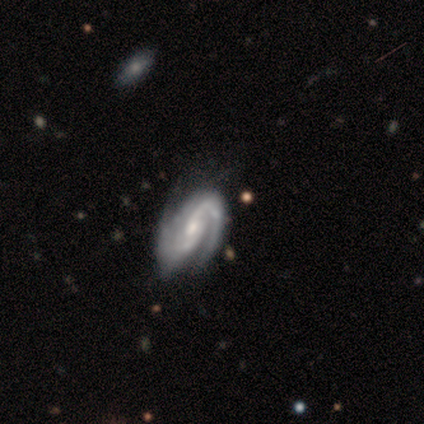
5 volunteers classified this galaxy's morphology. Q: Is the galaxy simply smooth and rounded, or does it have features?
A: featured or disk — 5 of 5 (100%).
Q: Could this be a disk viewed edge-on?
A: no — 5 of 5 (100%).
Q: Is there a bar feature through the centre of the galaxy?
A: no — 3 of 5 (60%).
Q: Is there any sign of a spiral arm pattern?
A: yes — 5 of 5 (100%).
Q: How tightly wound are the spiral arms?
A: tight — 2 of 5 (40%, tied with medium).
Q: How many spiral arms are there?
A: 2 — 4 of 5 (80%).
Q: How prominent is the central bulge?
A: moderate — 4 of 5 (80%).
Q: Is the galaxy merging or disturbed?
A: none — 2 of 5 (40%).